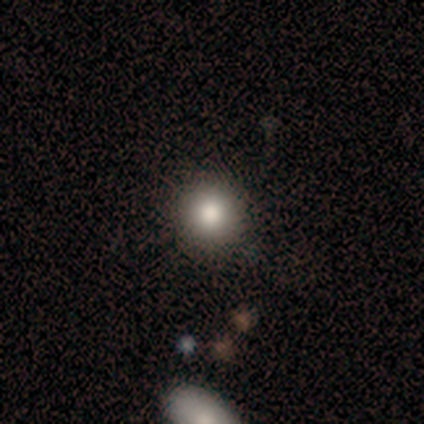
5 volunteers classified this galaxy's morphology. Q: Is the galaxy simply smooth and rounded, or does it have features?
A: smooth — 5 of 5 (100%).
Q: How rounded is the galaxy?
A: round — 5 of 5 (100%).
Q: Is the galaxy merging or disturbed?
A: none — 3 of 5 (60%).